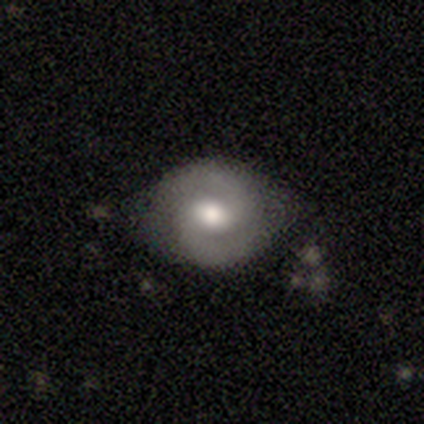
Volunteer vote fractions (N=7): Smooth or featured: featured or disk — 71% (smooth — 29%)
Edge-on disk: no — 100%
Bar: weak — 60% (strong — 20%)
Spiral arms: yes — 100%
Spiral winding: medium — 80% (tight — 20%)
Spiral arm count: 2 — 100%
Bulge size: moderate — 100%
Merging: none — 71% (minor disturbance — 29%)